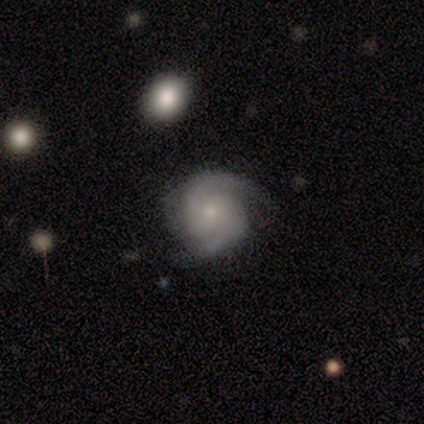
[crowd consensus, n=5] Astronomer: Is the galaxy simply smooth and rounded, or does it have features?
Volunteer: featured or disk — 80%.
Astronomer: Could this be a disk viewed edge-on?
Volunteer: no — 100%.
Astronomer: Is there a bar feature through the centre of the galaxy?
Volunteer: no — 50%.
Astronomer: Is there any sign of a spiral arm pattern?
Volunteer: yes — 100%.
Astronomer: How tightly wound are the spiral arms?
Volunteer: medium — 75%.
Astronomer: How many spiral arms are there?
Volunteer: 2 — 100%.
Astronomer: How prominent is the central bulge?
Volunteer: small — 75%.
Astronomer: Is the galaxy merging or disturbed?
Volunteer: none — 100%.